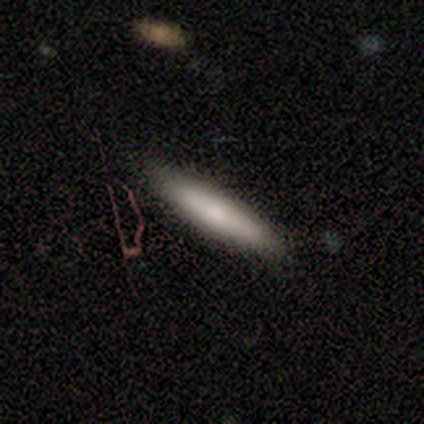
Smooth or featured? 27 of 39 (69%) said smooth. How rounded? 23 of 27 (85%) said cigar-shaped. Merging? 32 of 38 (84%) said none.